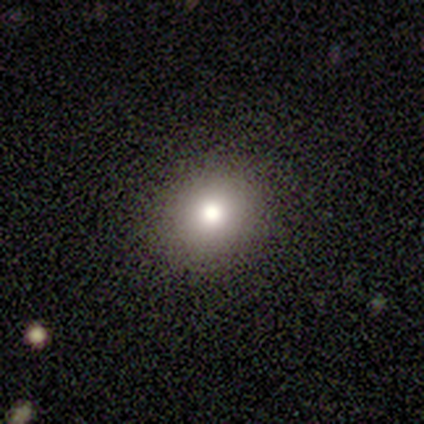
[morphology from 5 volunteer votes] This appears to be a smooth galaxy with no disk features (40%, tied with featured or disk) that is round (100%). Merging: none (75%).